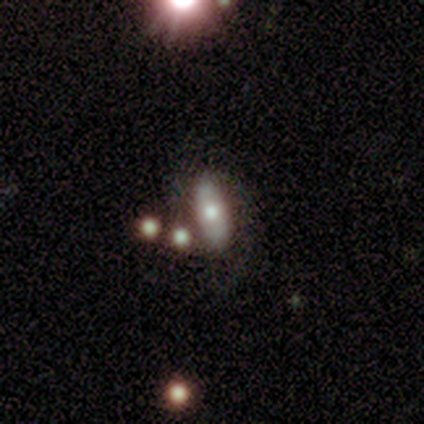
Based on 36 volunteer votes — This appears to be a featured or disk galaxy (50%) with no bar (67%), no spiral arms (67%) and a moderate central bulge (75%). Merging: none (70%).